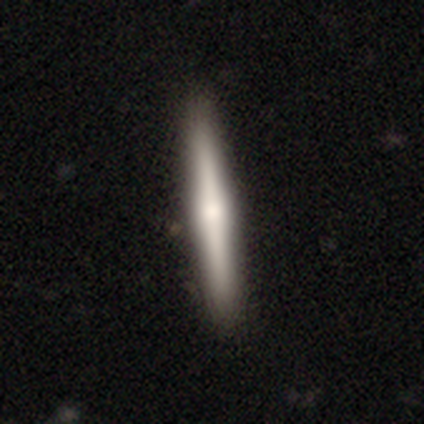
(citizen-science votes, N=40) smooth_or_featured: featured or disk (p=0.55) [alt: smooth p=0.42]
disk_edge_on: yes (p=1.00)
edge_on_bulge: rounded (p=0.82) [alt: none p=0.14]
merging: none (p=0.51) [alt: minor disturbance p=0.08]